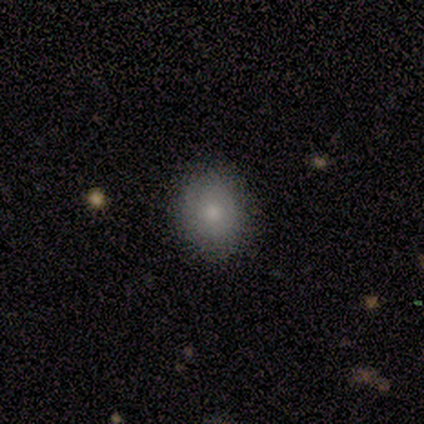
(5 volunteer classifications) Smooth or featured? 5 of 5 (100%) said smooth. How rounded? 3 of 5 (60%) said round. Merging? 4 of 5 (80%) said none.